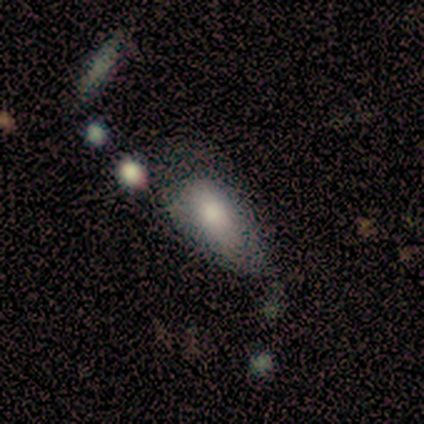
This appears to be a smooth galaxy with no disk features (100%) that is in between round and cigar-shaped (100%). Merging: minor disturbance (60%).